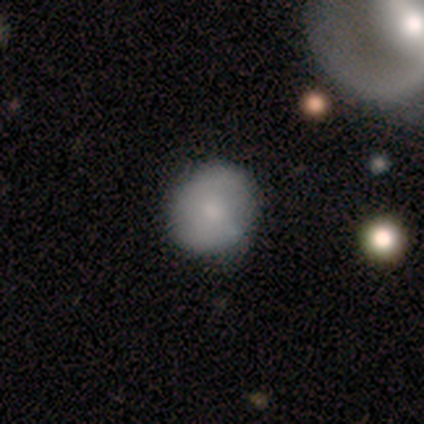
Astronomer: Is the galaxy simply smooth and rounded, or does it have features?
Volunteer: smooth — 67%.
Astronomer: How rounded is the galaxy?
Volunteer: round — 85%.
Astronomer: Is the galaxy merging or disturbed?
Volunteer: none — 65%.